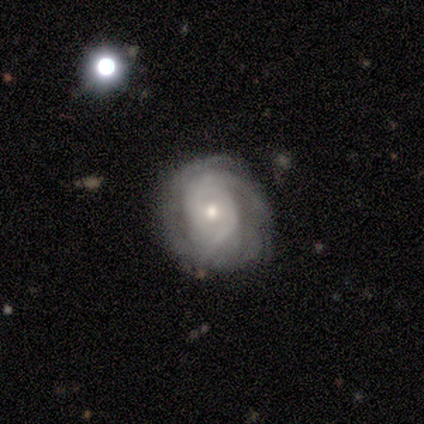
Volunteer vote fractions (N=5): A featured or disk galaxy (60%) with no bar (100%), 2 (100%) tight (100%) spiral arms (100%) and a small central bulge (67%). Merging: none (67%).